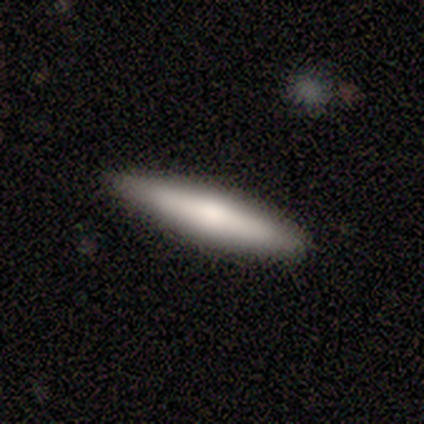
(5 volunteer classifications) Q: Smooth or featured?
A: smooth (80%); runner-up: featured or disk (20%)
Q: How rounded?
A: cigar-shaped (100%)
Q: Merging?
A: none (100%)